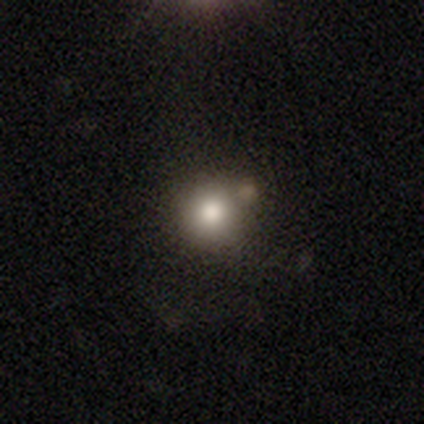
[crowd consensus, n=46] Q: Smooth or featured?
A: smooth (70%); runner-up: star or artifact (17%)
Q: How rounded?
A: round (91%); runner-up: in between (9%)
Q: Merging?
A: none (66%); runner-up: merger (16%)